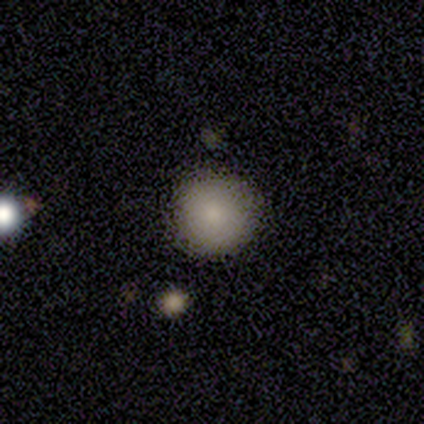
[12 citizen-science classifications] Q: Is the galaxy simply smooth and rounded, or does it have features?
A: smooth — 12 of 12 (100%).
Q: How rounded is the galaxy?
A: round — 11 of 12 (92%).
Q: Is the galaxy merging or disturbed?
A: none — 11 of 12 (92%).